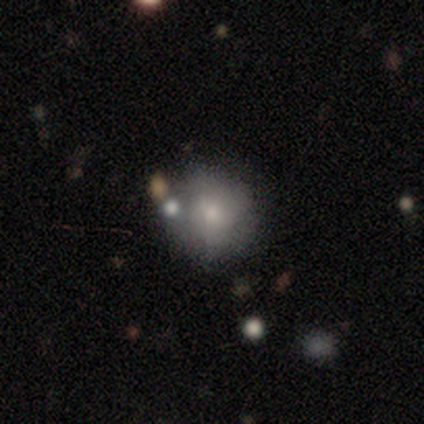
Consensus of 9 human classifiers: Volunteers were most divided on "merging": none: 44%, minor disturbance: 33%, major disturbance: 11%, merger: 11%. More confident: edge-on disk — no (100%); bar — no (100%); spiral arms — no (83%); smooth or featured — featured or disk (67%); bulge size — small (50%).